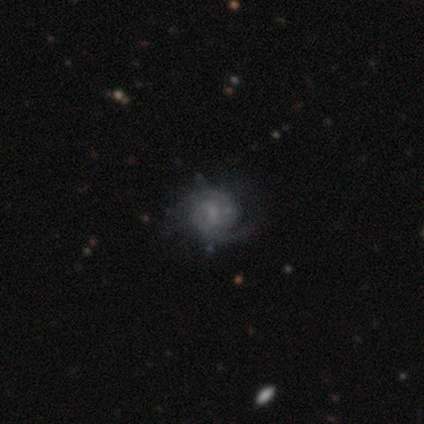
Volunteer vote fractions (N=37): Overall: featured or disk (76%). Edge-on disk: no (100%). Bar: no (50%; weak 43%). Spiral arms: yes (86%). Spiral arm count: 2 (79%). Spiral winding: tight (62%; medium 29%). Bulge size: small (39%, tied with none). Merging: none (91%).